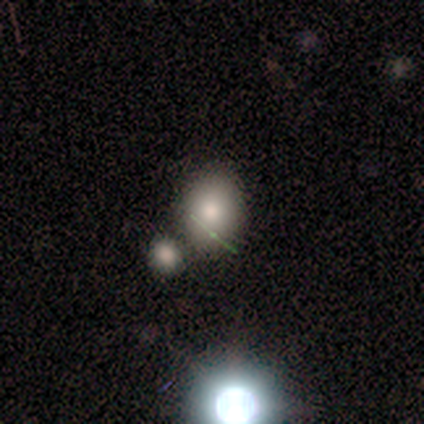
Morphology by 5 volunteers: smooth-or-featured: smooth: 80% | star or artifact: 20% | featured or disk: 0%
  how-rounded: in between: 100% | round: 0% | cigar-shaped: 0%
  merging: none: 50% (tied) | merger: 50% (tied) | minor disturbance: 0% | major disturbance: 0%